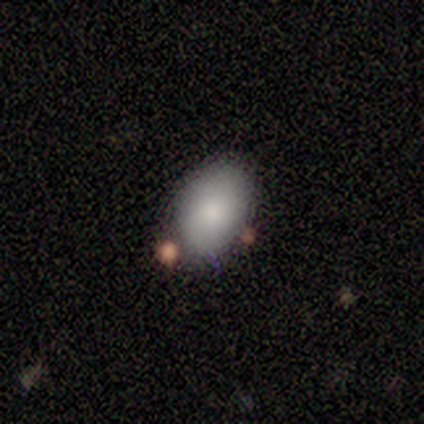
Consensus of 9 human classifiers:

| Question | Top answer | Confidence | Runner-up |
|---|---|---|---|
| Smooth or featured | smooth | 78% | featured or disk (11%) |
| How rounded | in between | 86% | round (14%) |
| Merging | none | 62% | minor disturbance (38%) |